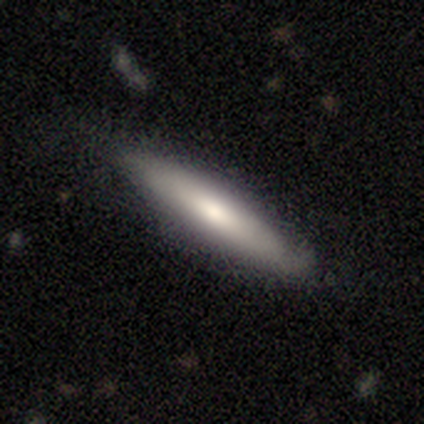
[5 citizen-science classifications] featured or disk 60%, smooth 40%, star or artifact 0%. Down the decision tree: edge-on disk — yes (67%); edge-on bulge — none (50%, tied with rounded); merging — none (100%).